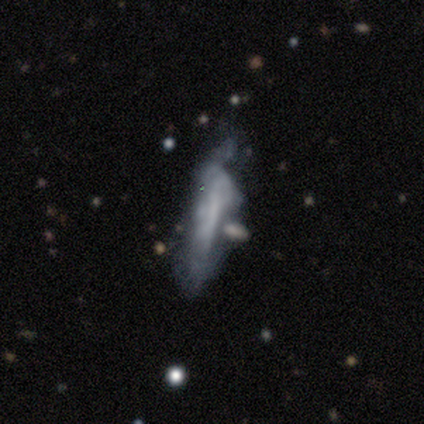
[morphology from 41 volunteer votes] A featured or disk galaxy (51%) with no bar (60%), no spiral arms (67%) and no central bulge (73%). Merging: none (34%).